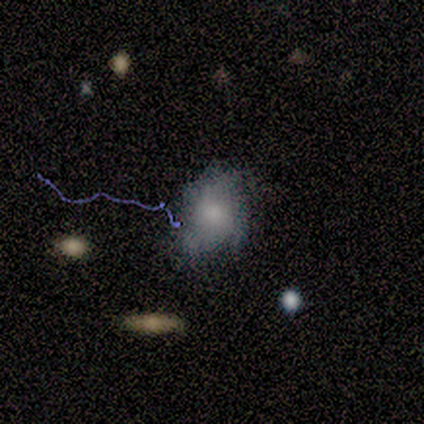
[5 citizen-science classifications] Smooth or featured? smooth (60%)
How rounded? round (67%)
Merging? minor disturbance (60%)